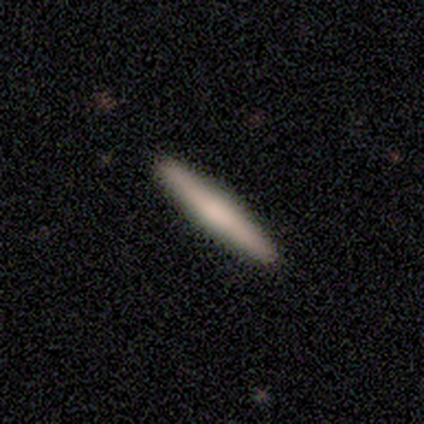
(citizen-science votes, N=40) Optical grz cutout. It shows a smooth galaxy with no disk features (70%) that is cigar-shaped (96%). Merging: none (58%).